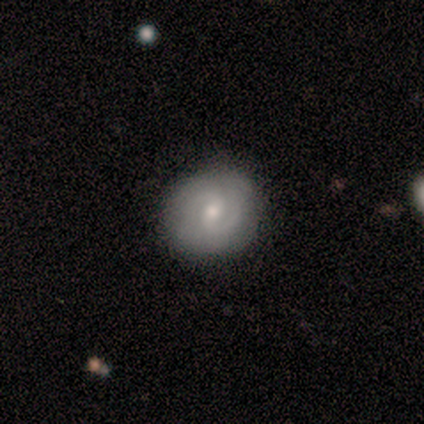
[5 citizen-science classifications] Smooth or featured? featured or disk (80%)
Edge-on disk? no (100%)
Bar? weak (50%, tied with no)
Spiral arms? yes (100%)
Spiral winding? medium (75%)
Spiral arm count? 2 (75%)
Bulge size? small (75%)
Merging? none (100%)